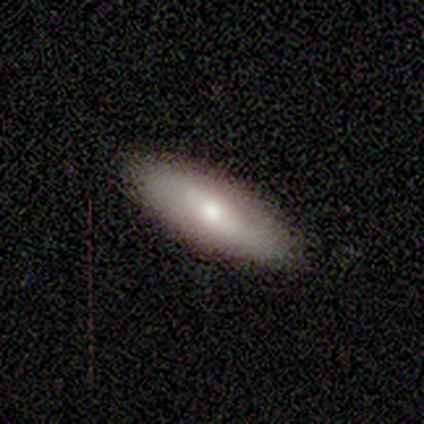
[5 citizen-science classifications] Q: Smooth or featured?
A: smooth (80%); runner-up: featured or disk (20%)
Q: How rounded?
A: in between (50%); tied with: cigar-shaped (50%)
Q: Merging?
A: none (100%)